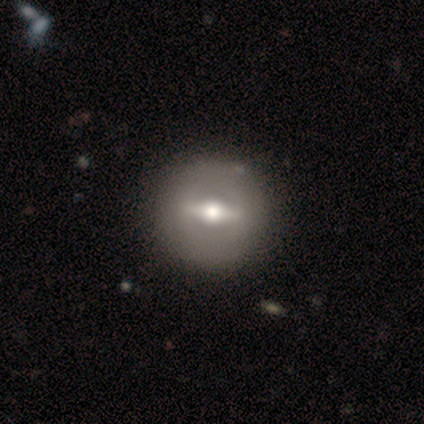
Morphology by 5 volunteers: This appears to be a featured or disk galaxy (60%) viewed edge-on (67%) with a rounded central bulge (100%). Merging: none (80%).